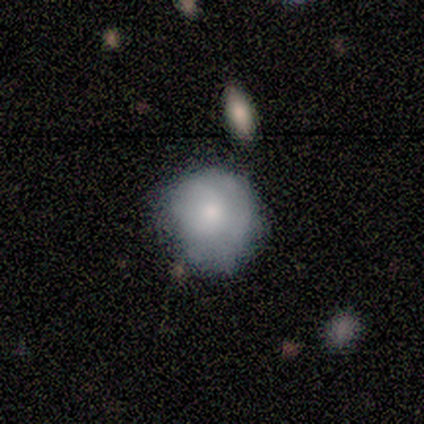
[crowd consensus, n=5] Smooth or featured? smooth (100%)
How rounded? round (100%)
Merging? minor disturbance (60%)